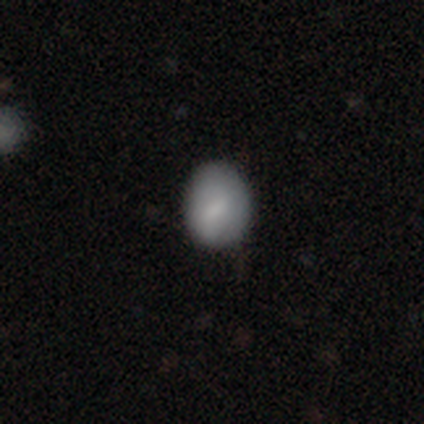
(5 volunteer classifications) This appears to be a smooth galaxy with no disk features (40%, tied with featured or disk) that is round (50%, tied with in between). Merging: none (75%).